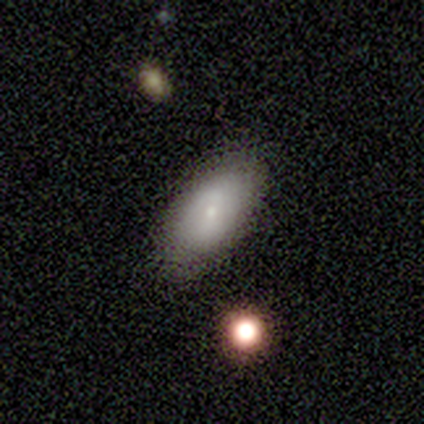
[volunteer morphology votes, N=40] This is likely a smooth galaxy (68%). How rounded: clearly in between (96%). Merging: likely none (78%).